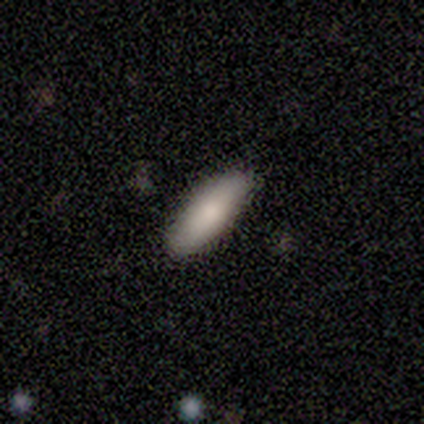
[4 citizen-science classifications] Smooth or featured: smooth — 75% (star or artifact — 25%)
How rounded: cigar-shaped — 67% (in between — 33%)
Merging: none — 100%